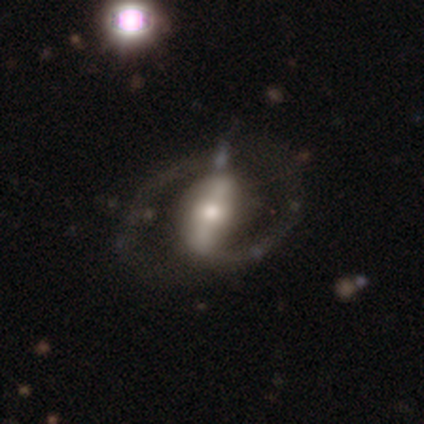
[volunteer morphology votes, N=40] A featured or disk galaxy (80%) with a strong bar (78%), 2 (93%) medium (64%) spiral arms (88%) and a moderate central bulge (56%). Merging: none (68%).